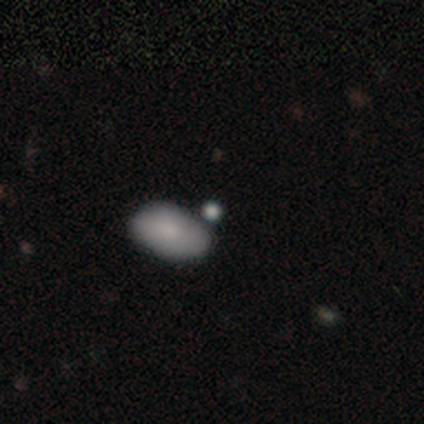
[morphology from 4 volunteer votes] smooth_or_featured: smooth (p=0.75) [alt: star or artifact p=0.25]
how_rounded: in between (p=0.67) [alt: round p=0.33]
merging: none (p=0.33) [tied with: minor disturbance p=0.33, merger p=0.33]